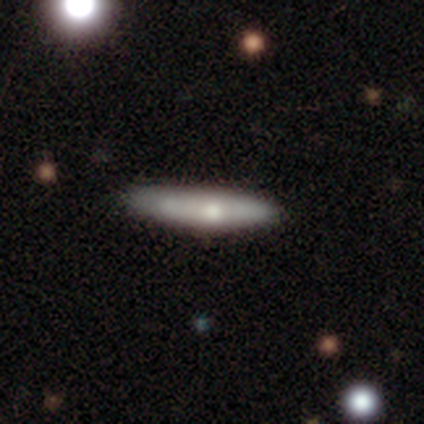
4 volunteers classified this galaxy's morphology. A smooth galaxy with no disk features (100%) that is cigar-shaped (100%). Merging: none (100%).